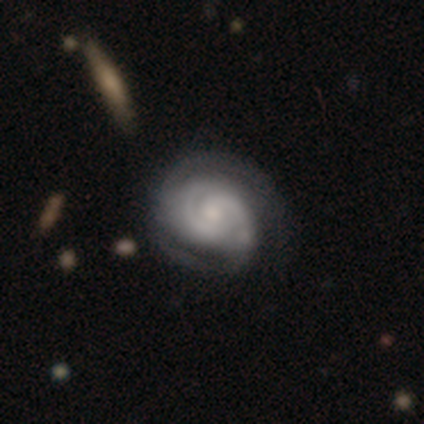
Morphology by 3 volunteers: A featured or disk galaxy (67%) with a strong bar (50%, tied with weak), 2 (100%) tight (100%) spiral arms (100%) and a large central bulge (50%, tied with small).

Vote fractions:
- Smooth or featured? featured or disk: 67% / star or artifact: 33% / smooth: 0%
- Edge-on disk? no: 100% / yes: 0%
- Bar? strong: 50% (tied) / weak: 50% (tied) / no: 0%
- Spiral arms? yes: 100% / no: 0%
- Spiral winding? tight: 100% / medium: 0% / loose: 0%
- Spiral arm count? 2: 100% / 1: 0% / 3: 0% / 4: 0% / more than 4: 0% / can't tell: 0%
- Bulge size? large: 50% (tied) / small: 50% (tied) / dominant: 0% / moderate: 0% / none: 0%
- Merging? minor disturbance: 50% (tied) / major disturbance: 50% (tied) / none: 0% / merger: 0%